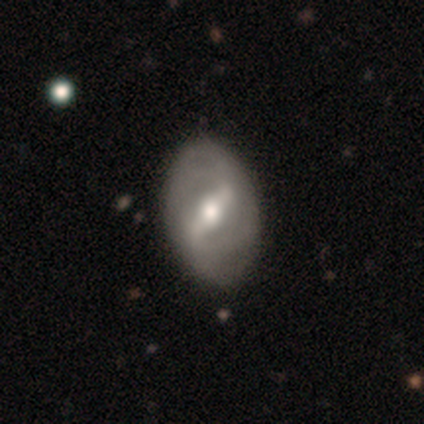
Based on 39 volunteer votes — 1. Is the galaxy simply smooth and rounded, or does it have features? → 87% featured or disk, 10% smooth, 3% star or artifact.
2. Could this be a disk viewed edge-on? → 91% no, 9% yes.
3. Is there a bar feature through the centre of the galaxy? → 55% strong, 42% weak, 3% no.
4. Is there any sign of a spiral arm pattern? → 71% yes, 29% no.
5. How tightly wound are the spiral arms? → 45% medium, 32% tight, 23% loose.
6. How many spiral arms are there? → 59% 2, 23% can't tell, 9% 4, 5% 1, 5% 3, 0% more than 4.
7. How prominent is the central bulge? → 81% moderate, 10% small, 6% large, 3% dominant, 0% none.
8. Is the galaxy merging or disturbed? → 47% none, 8% minor disturbance, 3% major disturbance, 0% merger.